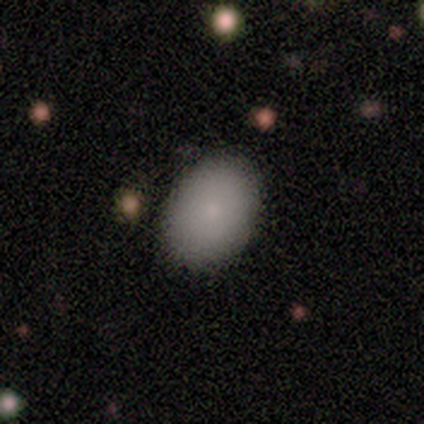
Volunteers were most divided on "how rounded": in between: 67%, round: 33%, cigar-shaped: 0%. More confident: smooth or featured — smooth (94%); merging — none (93%).